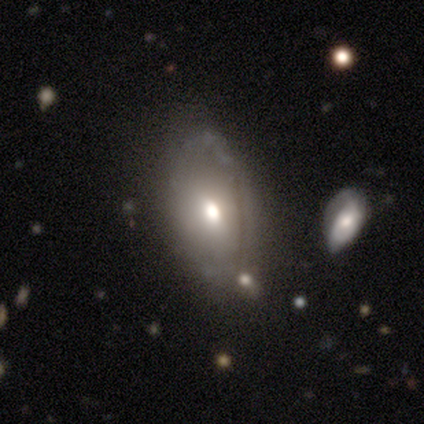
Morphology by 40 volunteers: featured or disk 48%, smooth 40%, star or artifact 12%. Down the decision tree: edge-on disk — no (89%); bar — no (71%); spiral arms — no (88%); bulge size — moderate (82%); merging — none (51%).